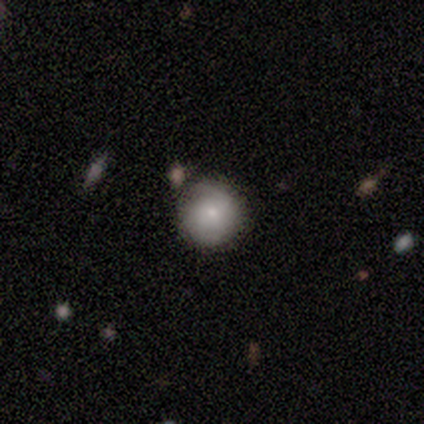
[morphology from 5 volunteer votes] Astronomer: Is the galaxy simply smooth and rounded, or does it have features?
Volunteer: smooth — 40%, tied with featured or disk at 40%.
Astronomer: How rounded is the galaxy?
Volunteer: round — 100%.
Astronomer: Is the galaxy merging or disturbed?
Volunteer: none — 100%.